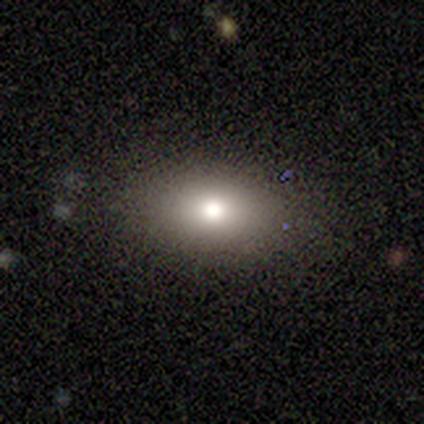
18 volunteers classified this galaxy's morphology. Smooth or featured?
  - smooth: 78% *
  - featured or disk: 17%
  - star or artifact: 6%
How rounded?
  - in between: 79% *
  - round: 21%
  - cigar-shaped: 0%
Merging?
  - none: 71% *
  - minor disturbance: 24%
  - major disturbance: 6%
  - merger: 0%